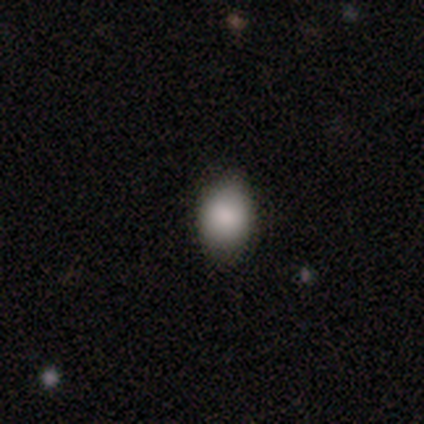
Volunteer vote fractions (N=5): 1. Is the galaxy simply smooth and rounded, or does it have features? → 100% smooth, 0% featured or disk, 0% star or artifact.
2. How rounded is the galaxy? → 80% in between, 20% round, 0% cigar-shaped.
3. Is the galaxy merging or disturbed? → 100% none, 0% minor disturbance, 0% major disturbance, 0% merger.